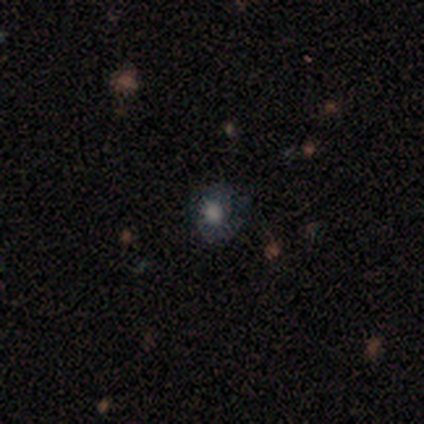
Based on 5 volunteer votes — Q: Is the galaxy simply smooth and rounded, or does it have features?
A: smooth — 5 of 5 (100%).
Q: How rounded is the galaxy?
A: round — 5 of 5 (100%).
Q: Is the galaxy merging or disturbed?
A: none — 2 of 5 (40%, tied with minor disturbance).